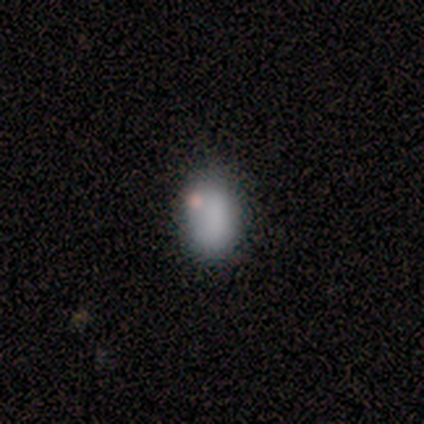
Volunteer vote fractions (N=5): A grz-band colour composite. It shows a smooth galaxy with no disk features (60%) that is in between round and cigar-shaped (100%). Merging: none (60%).